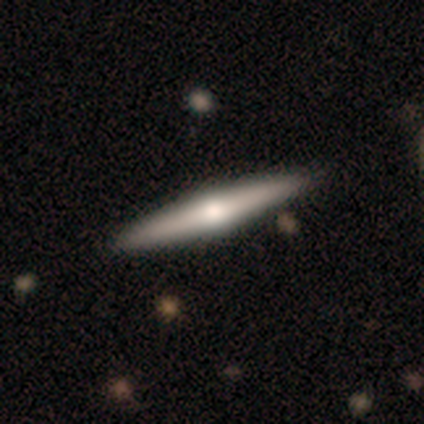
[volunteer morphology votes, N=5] This appears to be a featured or disk galaxy (80%) viewed edge-on (100%) with a rounded central bulge (100%). Merging: none (100%).